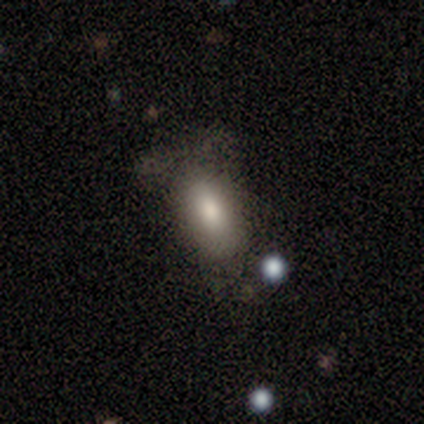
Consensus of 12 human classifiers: smooth-or-featured: smooth: 83% | featured or disk: 8% | star or artifact: 8%
  how-rounded: in between: 100% | round: 0% | cigar-shaped: 0%
  merging: none: 36% (tied) | major disturbance: 36% (tied) | minor disturbance: 27% | merger: 0%